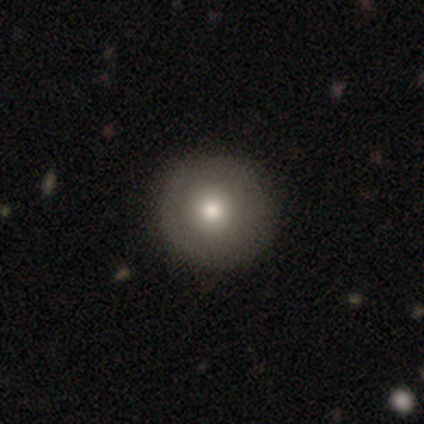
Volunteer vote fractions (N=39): A smooth galaxy with no disk features (64%) that is round (100%). Merging: none (82%).